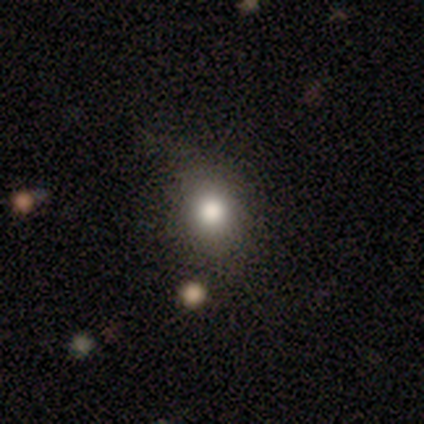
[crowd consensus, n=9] Overall: smooth (78%). How rounded: round (71%). Merging: none (88%).